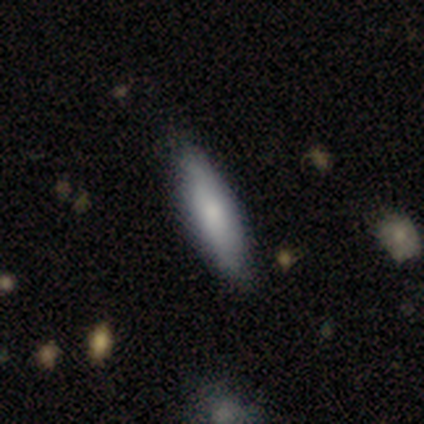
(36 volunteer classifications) Smooth or featured?
  - smooth: 81% *
  - star or artifact: 11%
  - featured or disk: 8%
How rounded?
  - cigar-shaped: 62% *
  - in between: 38%
  - round: 0%
Merging?
  - none: 78% *
  - minor disturbance: 16%
  - major disturbance: 3%
  - merger: 3%